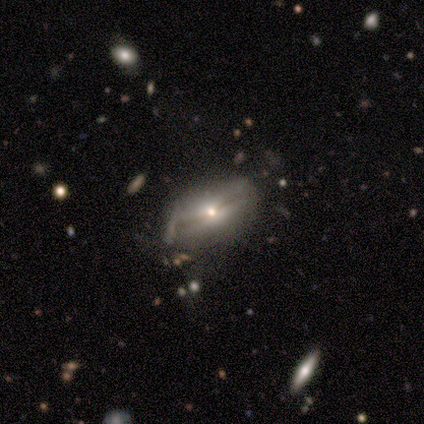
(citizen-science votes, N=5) Volunteers were most divided on "smooth or featured": featured or disk: 60%, smooth: 40%, star or artifact: 0%. More confident: edge-on bulge — rounded (100%); merging — minor disturbance (80%); edge-on disk — yes (67%).